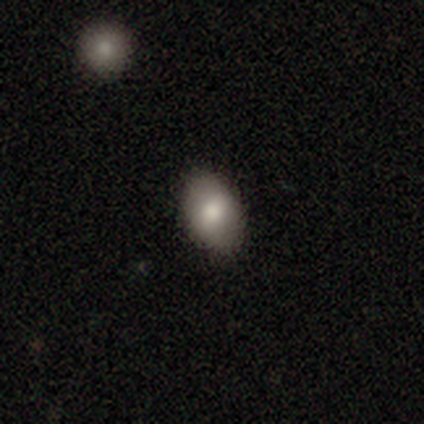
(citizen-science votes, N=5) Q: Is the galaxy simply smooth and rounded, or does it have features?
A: smooth — 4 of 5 (80%).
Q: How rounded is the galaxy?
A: in between — 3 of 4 (75%).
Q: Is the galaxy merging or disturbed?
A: none — 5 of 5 (100%).